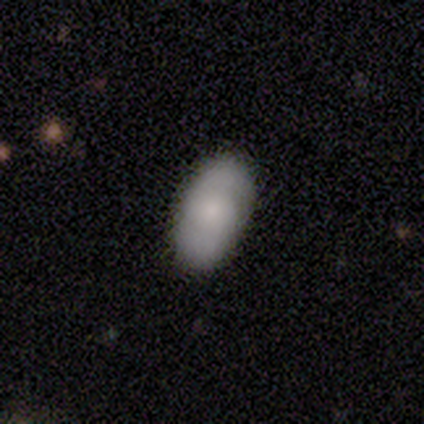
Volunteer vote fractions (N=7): Overall: featured or disk (57%; smooth 43%). Edge-on disk: no (100%). Bar: no (75%). Spiral arms: yes (100%). Spiral arm count: 2 (100%). Spiral winding: tight (50%; medium 25%). Bulge size: none (50%; moderate 25%). Merging: none (86%).